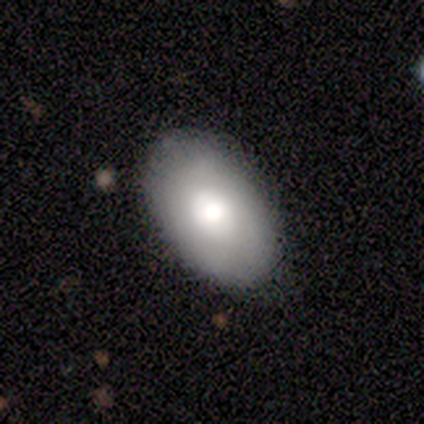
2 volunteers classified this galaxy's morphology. type=smooth (100%); roundness=in between (100%); merging=none (100%).